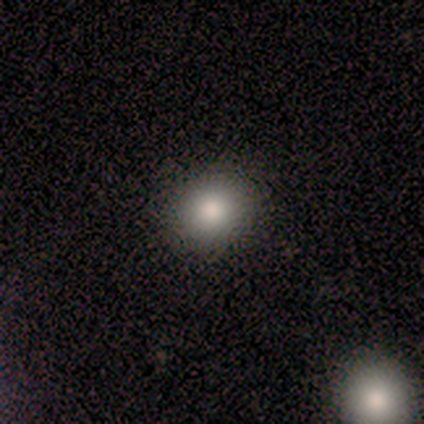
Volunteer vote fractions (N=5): Overall: smooth (80%). How rounded: round (75%). Merging: none (75%).